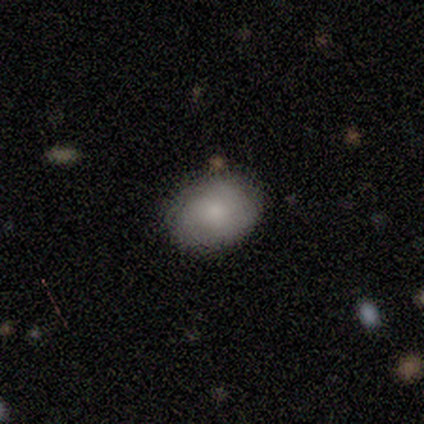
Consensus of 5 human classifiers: Overall: smooth (100%). How rounded: in between (80%). Merging: none (80%).